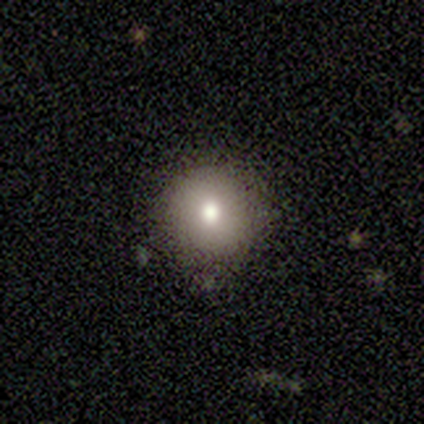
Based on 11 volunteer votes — Overall: smooth (82%). How rounded: round (100%). Merging: none (78%).